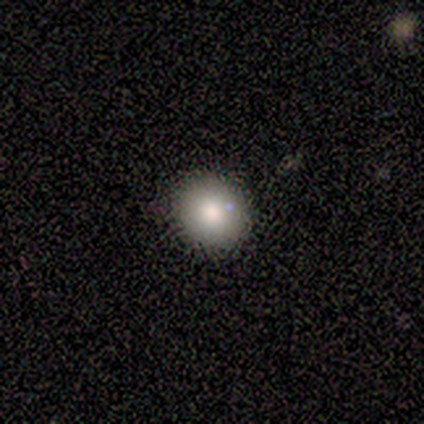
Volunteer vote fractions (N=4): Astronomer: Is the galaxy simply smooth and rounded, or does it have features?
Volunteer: smooth — 50%, tied with featured or disk at 50%.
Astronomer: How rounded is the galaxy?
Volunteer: round — 100%.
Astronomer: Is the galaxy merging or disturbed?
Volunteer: none — 75%.